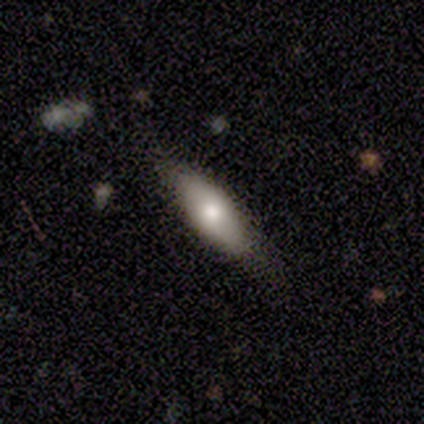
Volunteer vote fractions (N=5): smooth 80%, featured or disk 20%, star or artifact 0%. Down the decision tree: how rounded — in between (75%); merging — none (40%, tied with major disturbance).